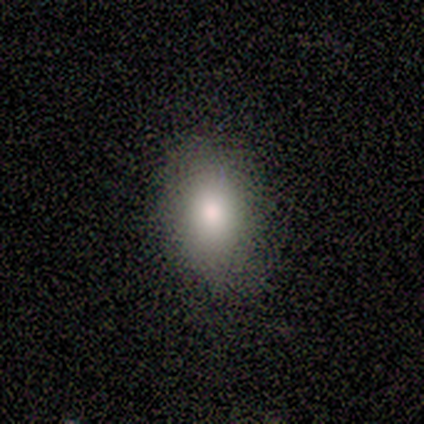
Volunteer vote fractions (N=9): This appears to be a smooth galaxy with no disk features (78%) that is in between round and cigar-shaped (86%). Merging: none (71%).